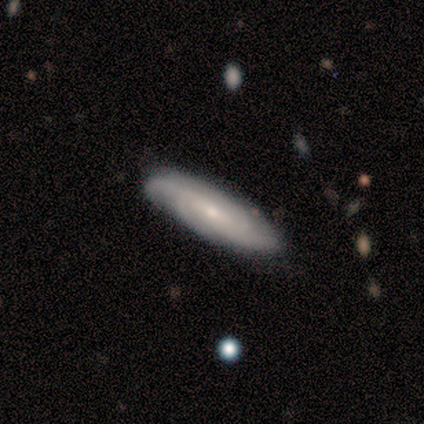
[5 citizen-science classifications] Q: Smooth or featured?
A: featured or disk (80%); runner-up: smooth (20%)
Q: Edge-on disk?
A: no (75%); runner-up: yes (25%)
Q: Bar?
A: no (100%)
Q: Spiral arms?
A: yes (100%)
Q: Spiral winding?
A: tight (67%); runner-up: medium (33%)
Q: Spiral arm count?
A: 3 (33%); tied with: 4 (33%); can't tell (33%)
Q: Bulge size?
A: small (67%); runner-up: moderate (33%)
Q: Merging?
A: none (80%); runner-up: minor disturbance (20%)